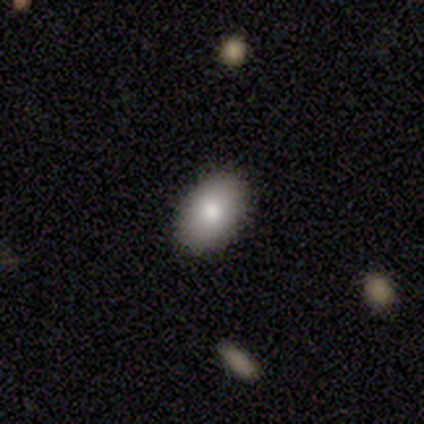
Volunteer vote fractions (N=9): Q: Smooth or featured?
A: smooth (89%); runner-up: featured or disk (11%)
Q: How rounded?
A: in between (100%)
Q: Merging?
A: none (100%)